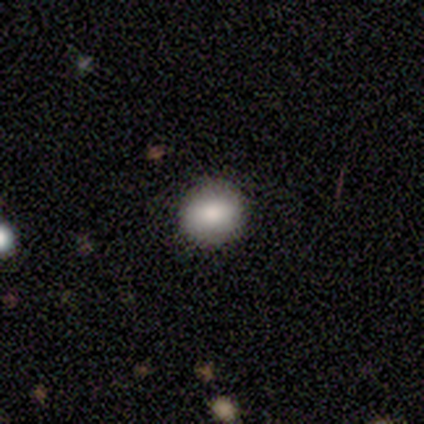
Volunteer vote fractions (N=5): Smooth or featured: smooth — 100%
How rounded: round — 80% (in between — 20%)
Merging: none — 100%